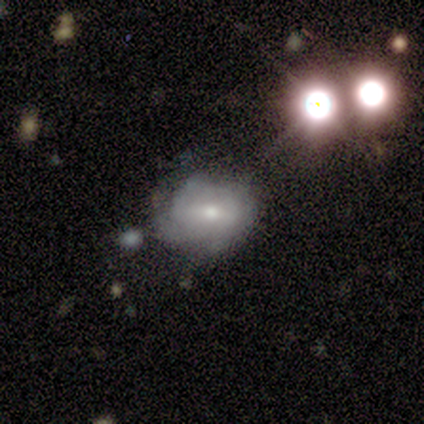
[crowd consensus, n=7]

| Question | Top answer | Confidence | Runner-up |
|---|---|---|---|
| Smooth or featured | smooth | 57% | featured or disk (43%) |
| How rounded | round | 50% | tied: in between (50%) |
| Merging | none | 71% | merger (29%) |